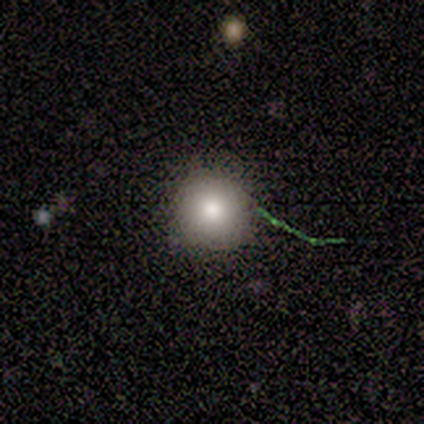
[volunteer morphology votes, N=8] Smooth or featured? smooth (75%)
How rounded? round (83%)
Merging? none (75%)